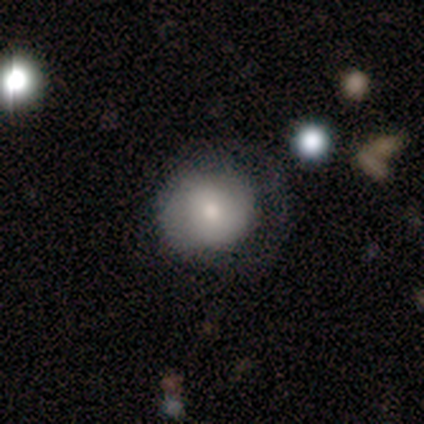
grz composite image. It shows a smooth galaxy with no disk features (86%) that is round (100%). Merging: none (57%).